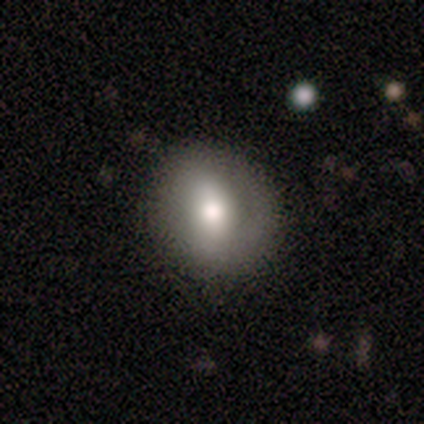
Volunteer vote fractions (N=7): This appears to be a smooth galaxy with no disk features (43%, tied with featured or disk) that is in between round and cigar-shaped (67%). Merging: none (100%).